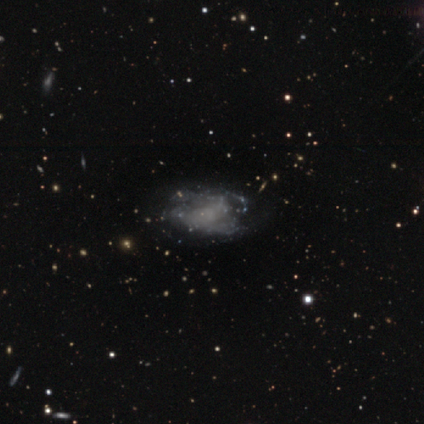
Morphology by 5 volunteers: Q: Smooth or featured?
A: star or artifact (60%); runner-up: smooth (20%)